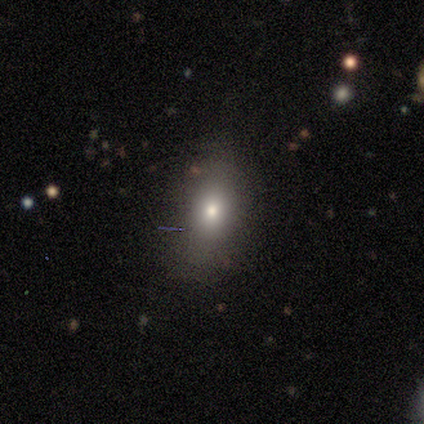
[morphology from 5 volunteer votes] This appears to be a smooth galaxy with no disk features (60%) that is in between round and cigar-shaped (100%). Merging: none (60%).